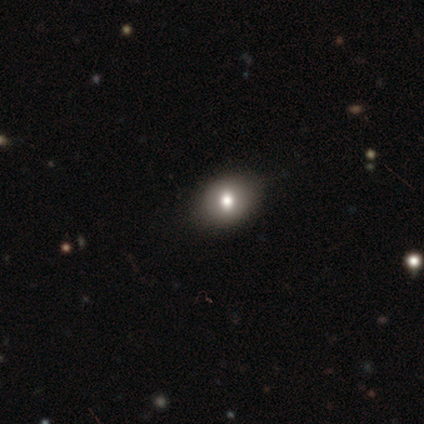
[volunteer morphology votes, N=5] Smooth or featured? smooth (100%)
How rounded? in between (80%)
Merging? none (80%)